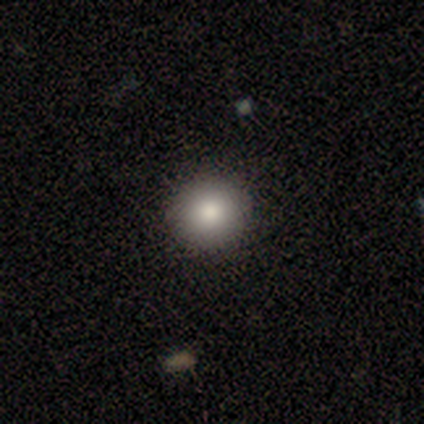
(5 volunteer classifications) This appears to be a smooth galaxy with no disk features (80%) that is round (75%). Merging: none (80%).